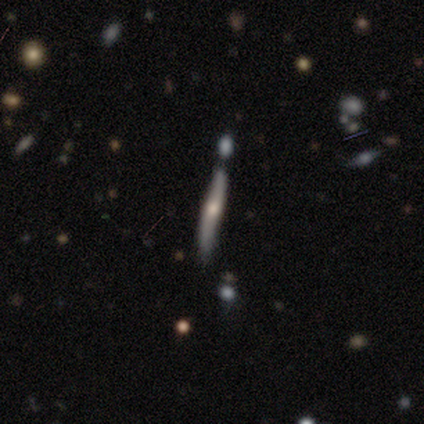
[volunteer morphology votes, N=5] A smooth galaxy with no disk features (40%, tied with featured or disk) that is cigar-shaped (100%).

Vote fractions:
- Smooth or featured? smooth: 40% (tied) / featured or disk: 40% (tied) / star or artifact: 20%
- How rounded? cigar-shaped: 100% / round: 0% / in between: 0%
- Merging? none: 75% / minor disturbance: 25% / major disturbance: 0% / merger: 0%